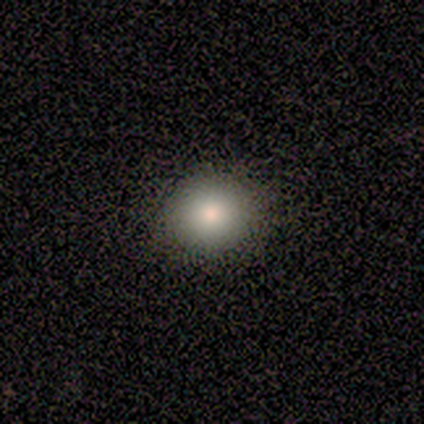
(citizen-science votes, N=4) Smooth or featured: smooth — 50% (tied with star or artifact — 50%)
How rounded: round — 100%
Merging: none — 100%